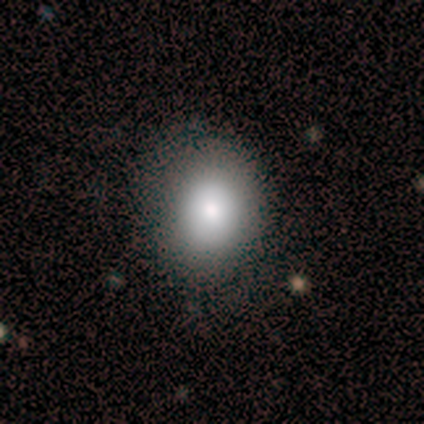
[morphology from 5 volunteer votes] Q: Smooth or featured?
A: smooth (80%); runner-up: featured or disk (20%)
Q: How rounded?
A: in between (75%); runner-up: round (25%)
Q: Merging?
A: none (80%); runner-up: minor disturbance (20%)